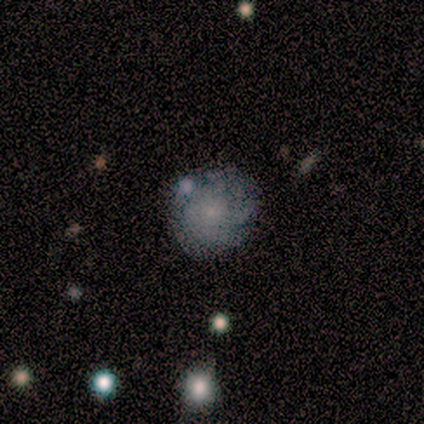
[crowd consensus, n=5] Smooth or featured: featured or disk — 40% (tied with star or artifact — 40%)
Edge-on disk: no — 100%
Bar: weak — 50% (tied with no — 50%)
Spiral arms: yes — 100%
Spiral winding: tight — 50% (tied with loose — 50%)
Spiral arm count: can't tell — 100%
Bulge size: small — 100%
Merging: none — 67% (minor disturbance — 33%)